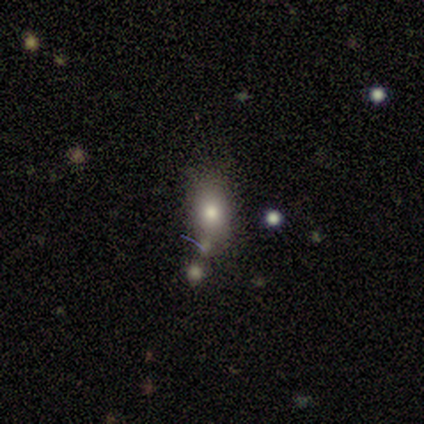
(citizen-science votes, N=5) Overall: star or artifact (60%; smooth 40%).